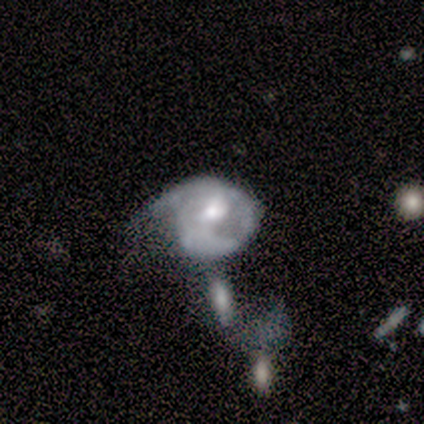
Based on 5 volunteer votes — smooth-or-featured: featured or disk: 80% | smooth: 20% | star or artifact: 0%
  disk-edge-on: no: 100% | yes: 0%
    bar: weak: 50% (tied) | no: 50% (tied) | strong: 0%
    has-spiral-arms: yes: 75% | no: 25%
      spiral-winding: tight: 33% (tied) | medium: 33% (tied) | loose: 33% (tied)
      spiral-arm-count: 1: 100% | 2: 0% | 3: 0% | 4: 0% | more than 4: 0% | can't tell: 0%
    bulge-size: moderate: 100% | dominant: 0% | large: 0% | small: 0% | none: 0%
  merging: major disturbance: 60% | none: 20% | minor disturbance: 20% | merger: 0%